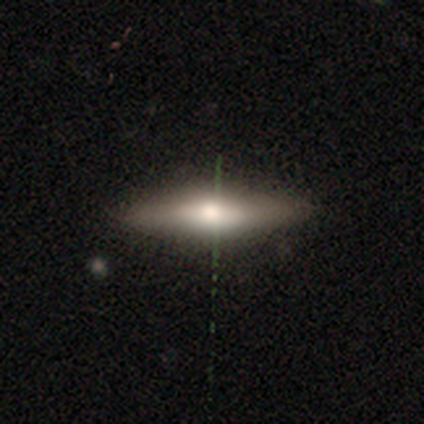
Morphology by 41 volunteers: Smooth or featured? featured or disk (56%)
Edge-on disk? yes (70%)
Edge-on bulge? rounded (94%)
Merging? none (85%)